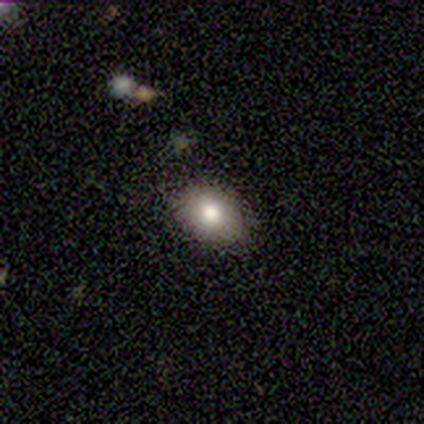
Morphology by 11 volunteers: smooth 91%, star or artifact 9%, featured or disk 0%. Down the decision tree: how rounded — round (50%, tied with in between); merging — none (100%).